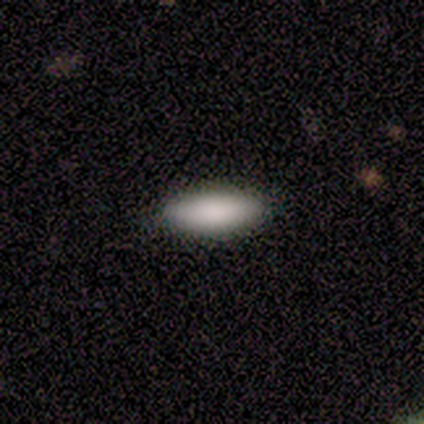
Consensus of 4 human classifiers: This appears to be a smooth galaxy with no disk features (75%) that is cigar-shaped (100%). Merging: none (100%).